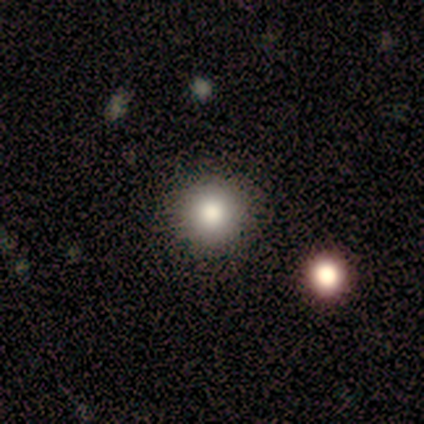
Smooth or featured? smooth (67%)
How rounded? round (100%)
Merging? none (100%)